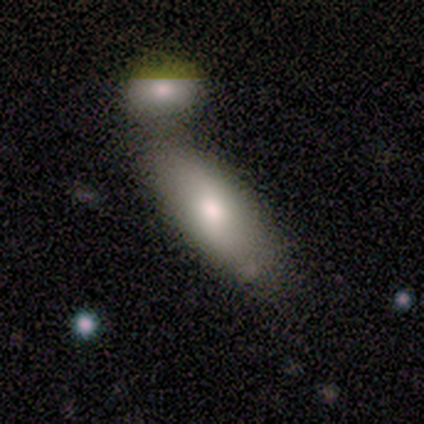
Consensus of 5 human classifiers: smooth-or-featured: smooth: 80% | featured or disk: 20% | star or artifact: 0%
  how-rounded: in between: 75% | cigar-shaped: 25% | round: 0%
  merging: none: 80% | minor disturbance: 20% | major disturbance: 0% | merger: 0%